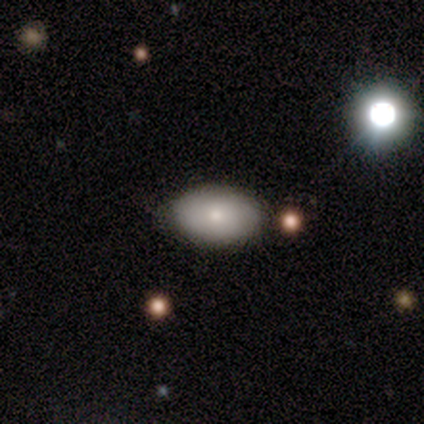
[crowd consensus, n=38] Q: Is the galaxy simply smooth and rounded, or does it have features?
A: smooth — 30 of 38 (79%).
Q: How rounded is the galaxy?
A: in between — 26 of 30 (87%).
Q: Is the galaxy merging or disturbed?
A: none — 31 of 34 (91%).